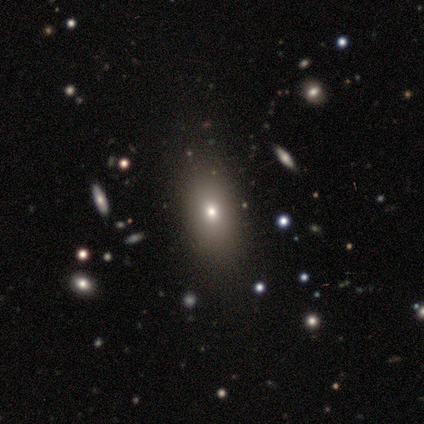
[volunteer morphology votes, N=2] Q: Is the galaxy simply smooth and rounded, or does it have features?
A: smooth — 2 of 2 (100%).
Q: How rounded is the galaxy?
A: round — 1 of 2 (50%, tied with in between).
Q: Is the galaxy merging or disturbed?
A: none — 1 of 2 (50%, tied with minor disturbance).